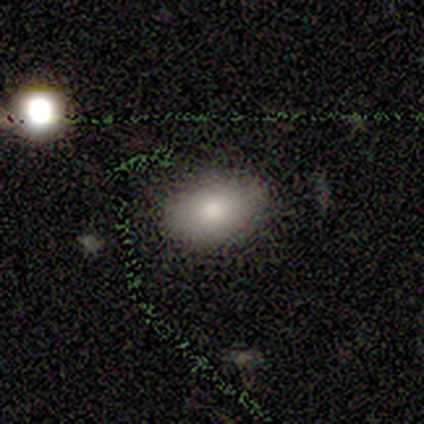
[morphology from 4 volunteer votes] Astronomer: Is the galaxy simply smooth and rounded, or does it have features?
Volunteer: smooth — 75%.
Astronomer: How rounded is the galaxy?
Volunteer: in between — 100%.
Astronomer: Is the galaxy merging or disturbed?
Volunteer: none — 100%.